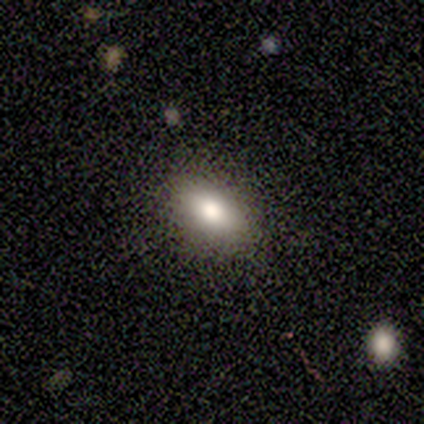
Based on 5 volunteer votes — This appears to be a smooth galaxy with no disk features (100%) that is in between round and cigar-shaped (100%). Merging: none (100%).